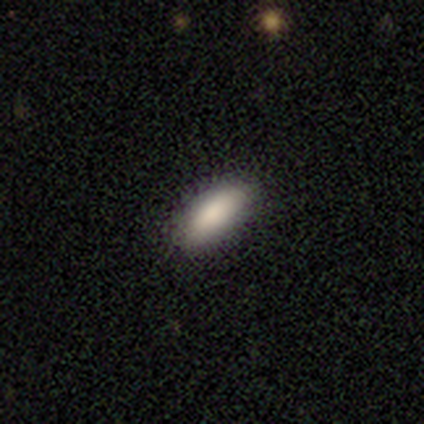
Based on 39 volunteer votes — Smooth or featured? smooth (92%)
How rounded? in between (83%)
Merging? none (97%)